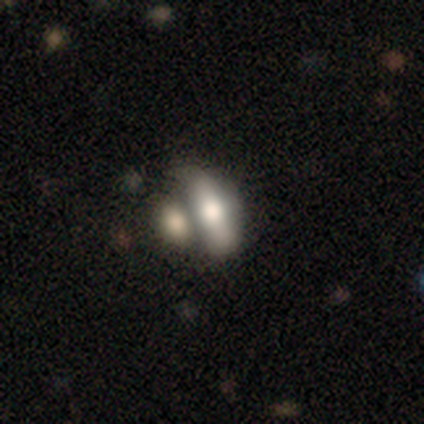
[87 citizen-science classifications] Q: Smooth or featured?
A: smooth (62%); runner-up: featured or disk (29%)
Q: How rounded?
A: in between (74%); runner-up: cigar-shaped (22%)
Q: Merging?
A: merger (48%); runner-up: none (29%)